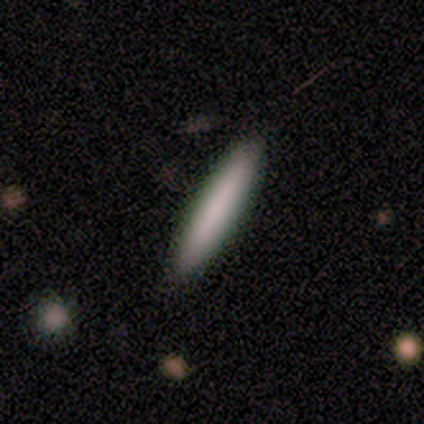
Smooth or featured: smooth — 80% (featured or disk — 20%)
How rounded: cigar-shaped — 100%
Merging: none — 80% (minor disturbance — 20%)